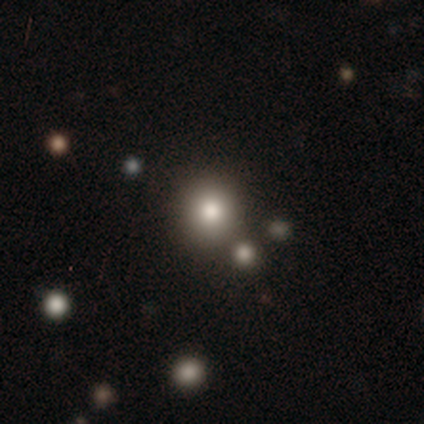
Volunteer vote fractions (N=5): Q: Smooth or featured?
A: smooth (80%); runner-up: featured or disk (20%)
Q: How rounded?
A: round (100%)
Q: Merging?
A: none (60%); runner-up: merger (40%)